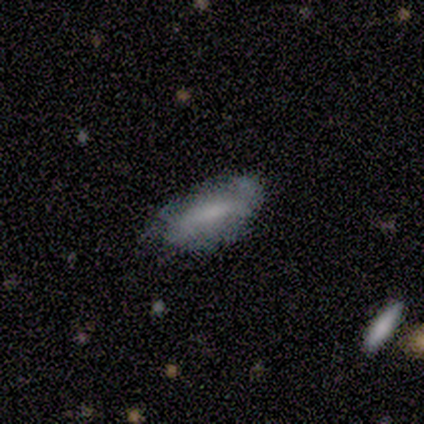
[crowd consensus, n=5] Smooth or featured? 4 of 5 (80%) said smooth. How rounded? 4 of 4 (100%) said in between. Merging? 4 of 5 (80%) said none.